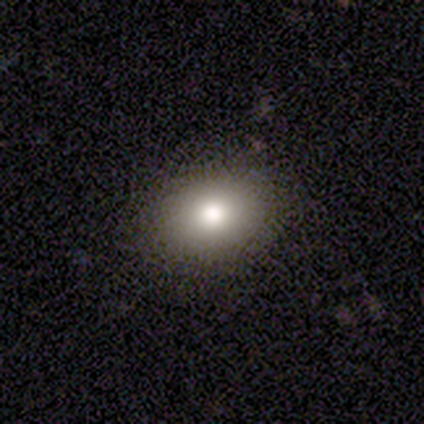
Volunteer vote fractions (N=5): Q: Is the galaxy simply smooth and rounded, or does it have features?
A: smooth — 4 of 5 (80%).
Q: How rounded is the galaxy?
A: round — 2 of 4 (50%, tied with in between).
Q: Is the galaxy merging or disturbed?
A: none — 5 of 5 (100%).